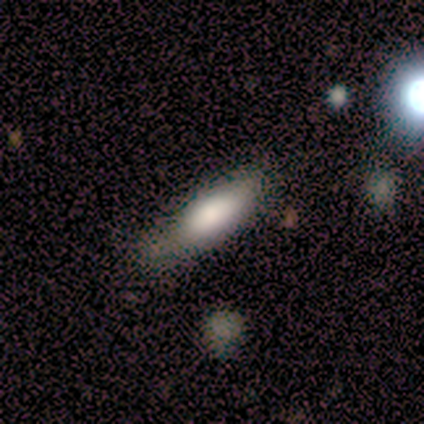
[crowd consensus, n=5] Overall: smooth (100%). How rounded: cigar-shaped (60%; in between 40%). Merging: none (60%; minor disturbance 40%).